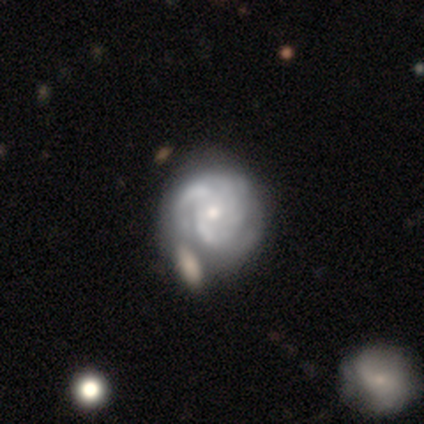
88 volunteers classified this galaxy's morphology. Volunteers were most divided on "merging": none: 45%, minor disturbance: 31%, merger: 16%, major disturbance: 8%. More confident: edge-on disk — no (97%); spiral arms — yes (92%); smooth or featured — featured or disk (84%); bar — no (75%); bulge size — small (72%); spiral winding — tight (65%); spiral arm count — can't tell (52%).